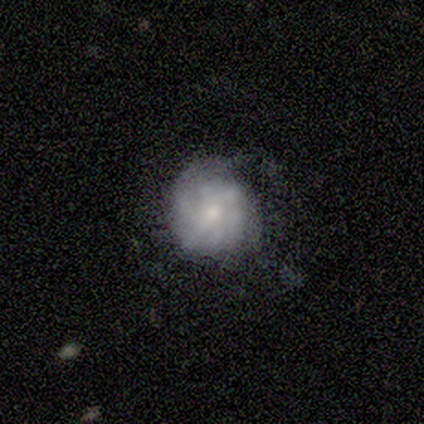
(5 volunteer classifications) Morphology: type=featured or disk (80%); edge-on=no (100%); bar=weak (50%, tied with no); spiral arms=yes (75%); winding=tight (33%, tied with medium and loose); arm count=can't tell (100%); bulge=moderate (50%, tied with small); merging=minor disturbance (60%).